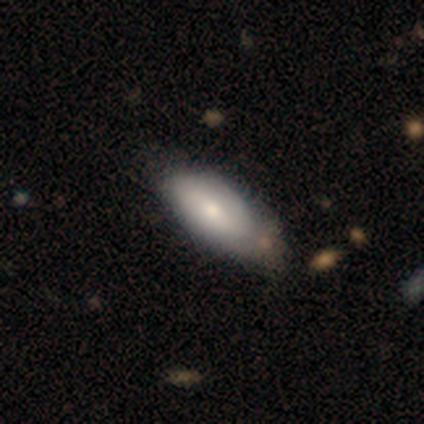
This is clearly a smooth galaxy (80%). How rounded: clearly in between (100%). Merging: likely minor disturbance (60%).